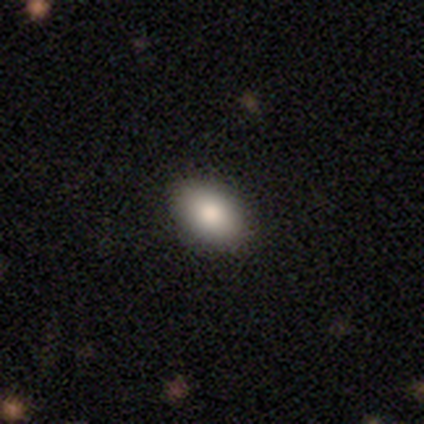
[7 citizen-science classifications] A smooth galaxy with no disk features (86%) that is in between round and cigar-shaped (100%).

Vote fractions:
- Smooth or featured? smooth: 86% / featured or disk: 14% / star or artifact: 0%
- How rounded? in between: 100% / round: 0% / cigar-shaped: 0%
- Merging? none: 100% / minor disturbance: 0% / major disturbance: 0% / merger: 0%